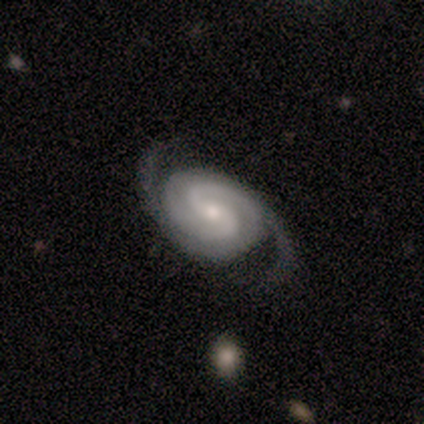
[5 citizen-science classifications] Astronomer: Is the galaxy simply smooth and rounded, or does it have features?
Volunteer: featured or disk — 80%.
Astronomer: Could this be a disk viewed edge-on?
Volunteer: no — 100%.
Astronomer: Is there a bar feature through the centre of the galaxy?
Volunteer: no — 100%.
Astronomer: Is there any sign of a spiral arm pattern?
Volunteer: yes — 100%.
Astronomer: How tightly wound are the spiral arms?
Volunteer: tight — 50%, tied with medium at 50%.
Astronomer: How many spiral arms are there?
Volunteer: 2 — 100%.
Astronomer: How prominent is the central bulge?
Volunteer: moderate — 50%, tied with small at 50%.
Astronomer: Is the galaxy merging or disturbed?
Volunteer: none — 50%, tied with major disturbance at 50%.